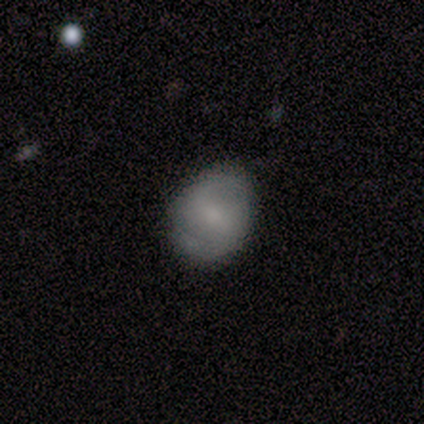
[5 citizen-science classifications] smooth_or_featured: featured or disk (p=0.60) [alt: smooth p=0.40]
disk_edge_on: no (p=1.00)
bar: weak (p=1.00)
has_spiral_arms: yes (p=0.67) [alt: no p=0.33]
spiral_winding: medium (p=0.50) [tied with: loose p=0.50]
spiral_arm_count: 2 (p=1.00)
bulge_size: moderate (p=0.67) [alt: small p=0.33]
merging: none (p=0.60) [alt: minor disturbance p=0.40]